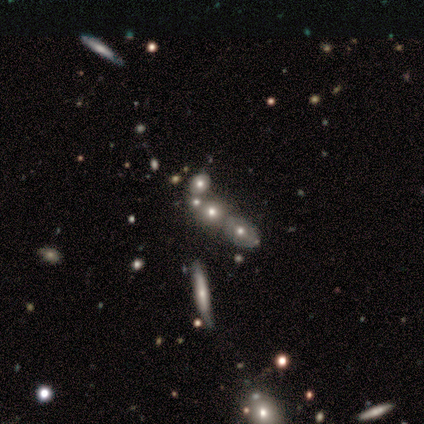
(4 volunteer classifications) A star or artifact, not a galaxy (50%).

Vote fractions:
- Smooth or featured? star or artifact: 50% / smooth: 25% / featured or disk: 25%